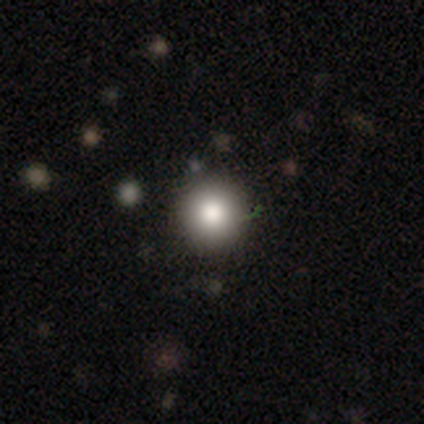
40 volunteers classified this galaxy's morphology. smooth-or-featured: smooth: 82% | featured or disk: 10% | star or artifact: 8%
  how-rounded: round: 97% | in between: 3% | cigar-shaped: 0%
  merging: none: 49% | merger: 3% | minor disturbance: 0% | major disturbance: 0%